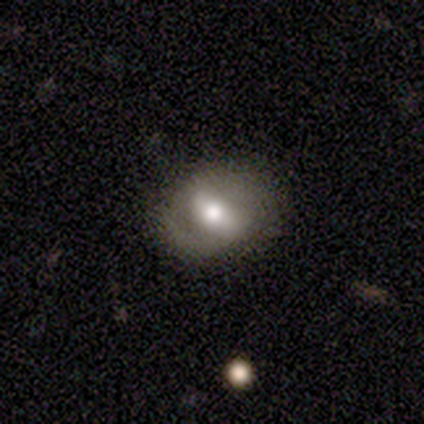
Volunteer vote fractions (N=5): Q: Smooth or featured?
A: smooth (40%); tied with: featured or disk (40%)
Q: How rounded?
A: in between (100%)
Q: Merging?
A: none (75%); runner-up: minor disturbance (25%)